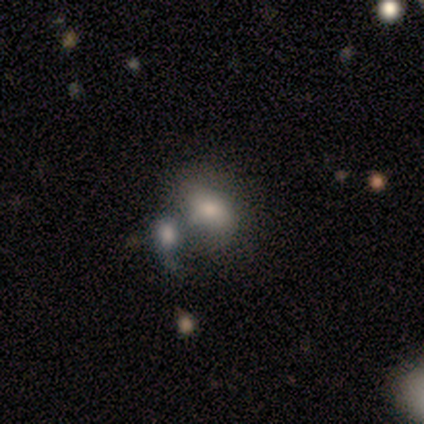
This appears to be a smooth galaxy with no disk features (40%, tied with star or artifact) that is in between round and cigar-shaped (100%). Merging: merger (67%).